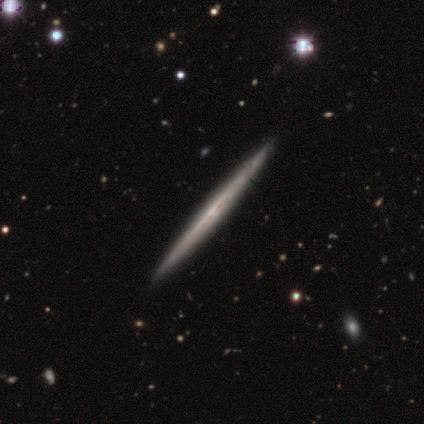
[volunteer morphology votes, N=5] smooth_or_featured: featured or disk (p=0.60) [alt: smooth p=0.40]
disk_edge_on: yes (p=1.00)
edge_on_bulge: none (p=1.00)
merging: none (p=1.00)